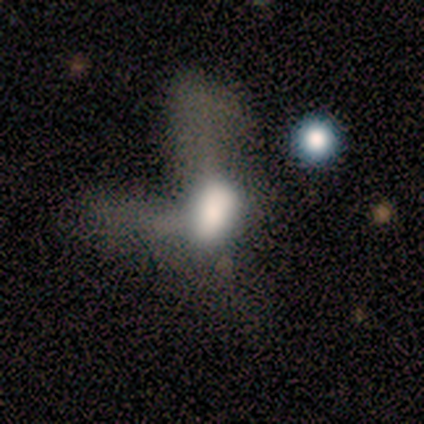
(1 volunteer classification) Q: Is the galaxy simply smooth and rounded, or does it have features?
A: smooth — 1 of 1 (100%).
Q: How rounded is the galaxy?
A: in between — 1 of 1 (100%).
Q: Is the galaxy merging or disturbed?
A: merger — 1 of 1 (100%).